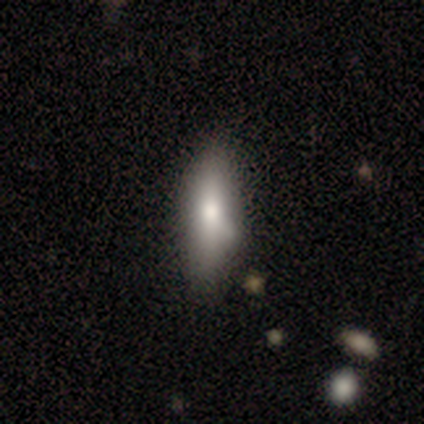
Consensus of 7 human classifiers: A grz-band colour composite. It shows a smooth galaxy with no disk features (71%) that is in between round and cigar-shaped (60%). Merging: minor disturbance (29%, tied with major disturbance and merger).